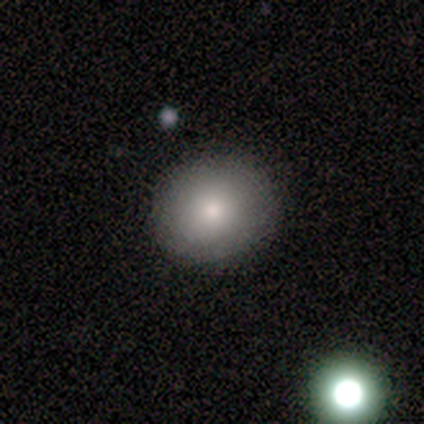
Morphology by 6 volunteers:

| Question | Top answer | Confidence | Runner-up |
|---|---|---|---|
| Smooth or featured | smooth | 100% | — |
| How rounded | round | 83% | in between (17%) |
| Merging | none | 83% | minor disturbance (17%) |